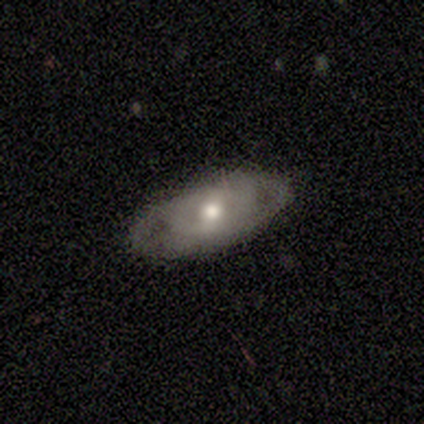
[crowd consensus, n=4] Overall: featured or disk (75%). Edge-on disk: no (67%; yes 33%). Bar: strong (50%, tied with no). Spiral arms: yes (50%, tied with no). Spiral arm count: 2 (100%). Spiral winding: loose (100%). Bulge size: moderate (100%). Merging: none (75%).